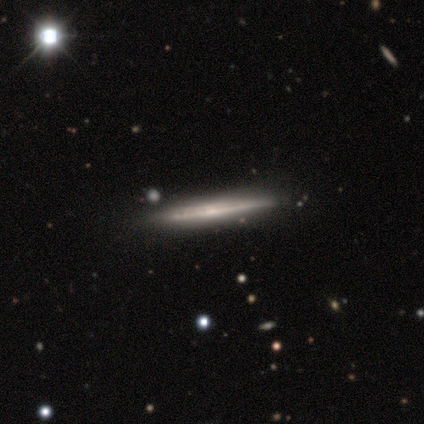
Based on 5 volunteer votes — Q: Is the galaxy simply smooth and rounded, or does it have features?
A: featured or disk — 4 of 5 (80%).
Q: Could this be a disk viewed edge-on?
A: yes — 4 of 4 (100%).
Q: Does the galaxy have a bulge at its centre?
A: none — 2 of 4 (50%).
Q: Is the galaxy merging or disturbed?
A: none — 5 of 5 (100%).